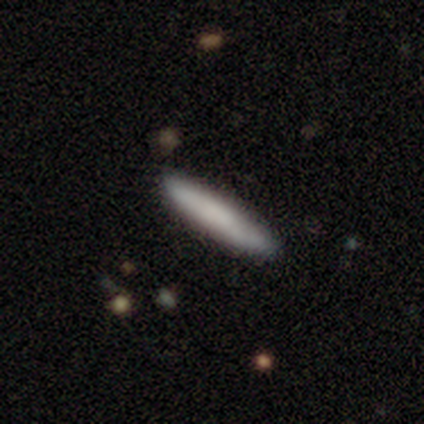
Morphology: type=smooth (79%); roundness=cigar-shaped (94%); merging=none (41%).